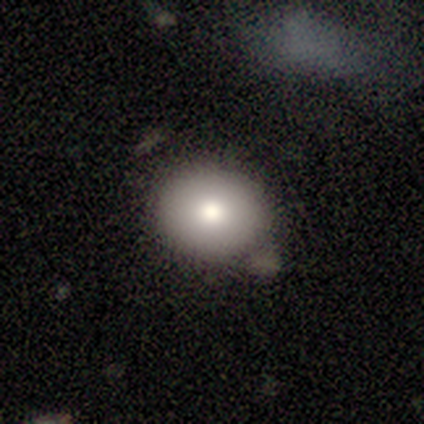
A smooth galaxy with no disk features (75%) that is round (67%).

Vote fractions:
- Smooth or featured? smooth: 75% / star or artifact: 25% / featured or disk: 0%
- How rounded? round: 67% / in between: 33% / cigar-shaped: 0%
- Merging? none: 67% / minor disturbance: 33% / major disturbance: 0% / merger: 0%